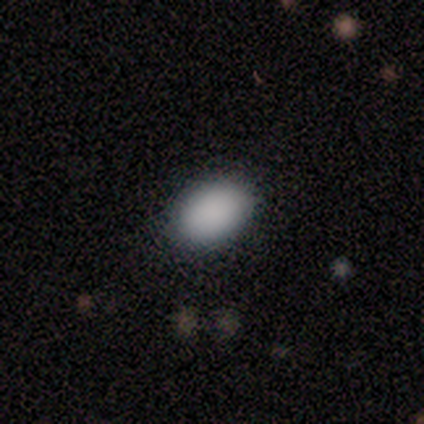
Volunteers were most divided on "how rounded": in between: 90%, round: 10%, cigar-shaped: 0%. More confident: smooth or featured — smooth (91%); merging — none (90%).